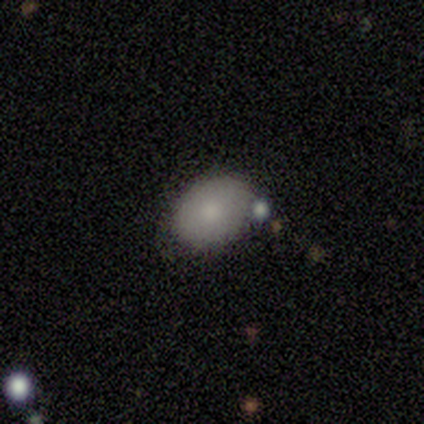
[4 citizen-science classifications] smooth-or-featured: smooth: 75% | star or artifact: 25% | featured or disk: 0%
  how-rounded: round: 67% | in between: 33% | cigar-shaped: 0%
  merging: none: 67% | merger: 33% | minor disturbance: 0% | major disturbance: 0%